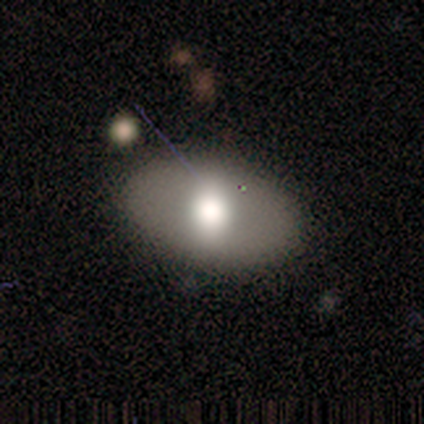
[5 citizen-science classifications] Smooth or featured: smooth — 40% (tied with featured or disk — 40%)
How rounded: in between — 100%
Merging: none — 75% (minor disturbance — 25%)